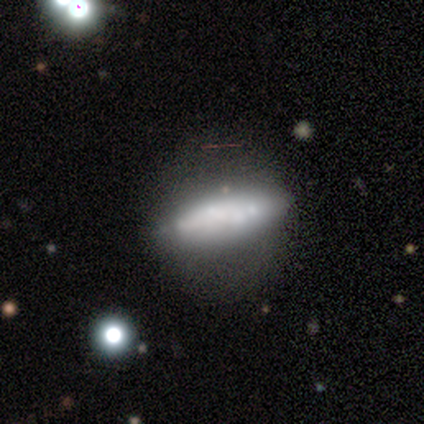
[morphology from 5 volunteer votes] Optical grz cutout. It shows a featured or disk galaxy (100%) with a strong bar (50%, tied with no), no spiral arms (100%) and no central bulge (50%). Merging: none (60%).